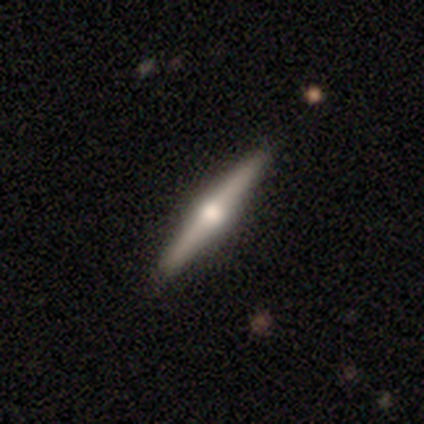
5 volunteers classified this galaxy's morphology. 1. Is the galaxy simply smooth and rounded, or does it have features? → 100% featured or disk, 0% smooth, 0% star or artifact.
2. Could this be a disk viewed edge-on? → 100% yes, 0% no.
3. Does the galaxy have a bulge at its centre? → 100% rounded, 0% boxy, 0% none.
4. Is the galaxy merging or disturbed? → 100% none, 0% minor disturbance, 0% major disturbance, 0% merger.